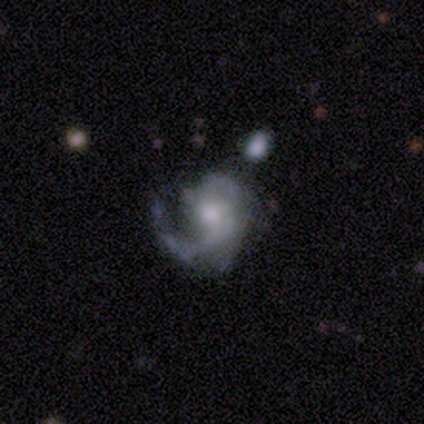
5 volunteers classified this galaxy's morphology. Smooth or featured? featured or disk (60%)
Edge-on disk? no (100%)
Bar? no (100%)
Spiral arms? yes (100%)
Spiral winding? medium (67%)
Spiral arm count? 1 (67%)
Bulge size? moderate (100%)
Merging? major disturbance (80%)